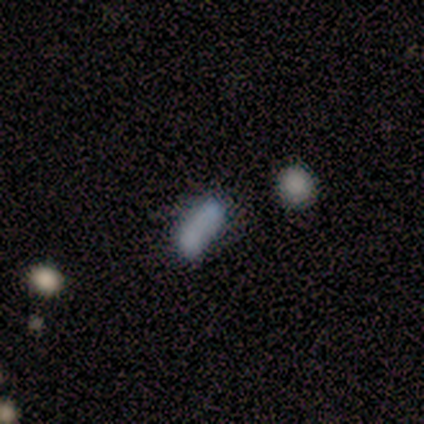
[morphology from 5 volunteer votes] smooth_or_featured: smooth (p=0.80) [alt: star or artifact p=0.20]
how_rounded: cigar-shaped (p=0.50) [alt: round p=0.25]
merging: merger (p=0.75) [alt: minor disturbance p=0.25]